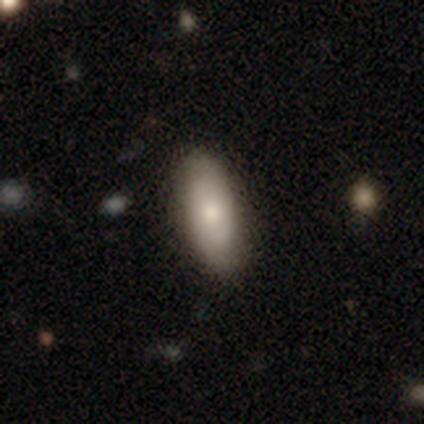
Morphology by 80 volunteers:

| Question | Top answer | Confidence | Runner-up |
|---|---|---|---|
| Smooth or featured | smooth | 70% | featured or disk (28%) |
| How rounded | in between | 80% | cigar-shaped (18%) |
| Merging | none | 45% | minor disturbance (5%) |